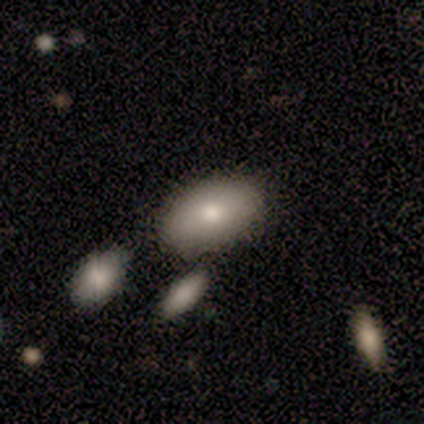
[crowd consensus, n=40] Volunteers were most divided on "merging": none: 68%, minor disturbance: 14%, merger: 14%, major disturbance: 5%. More confident: how rounded — in between (90%); smooth or featured — smooth (78%).